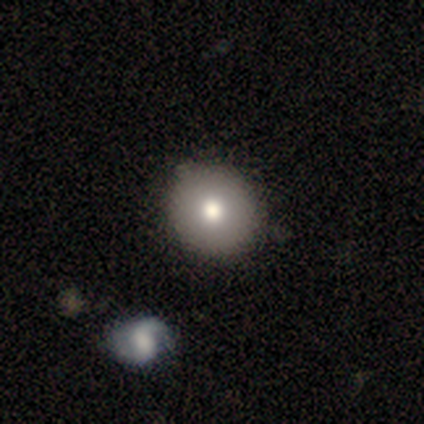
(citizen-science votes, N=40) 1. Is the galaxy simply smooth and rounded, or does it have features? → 92% smooth, 8% featured or disk, 0% star or artifact.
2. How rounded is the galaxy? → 92% round, 8% in between, 0% cigar-shaped.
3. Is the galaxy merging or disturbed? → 75% none, 5% minor disturbance, 2% merger, 0% major disturbance.